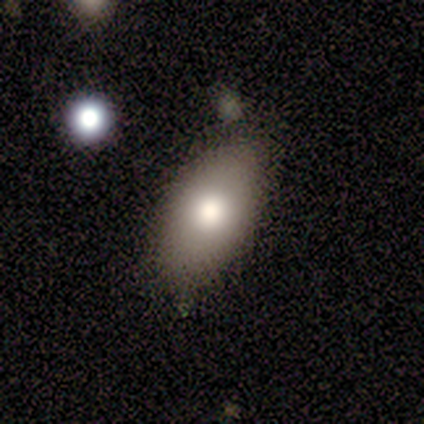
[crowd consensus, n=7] Morphology: type=smooth (100%); roundness=in between (100%); merging=none (71%).